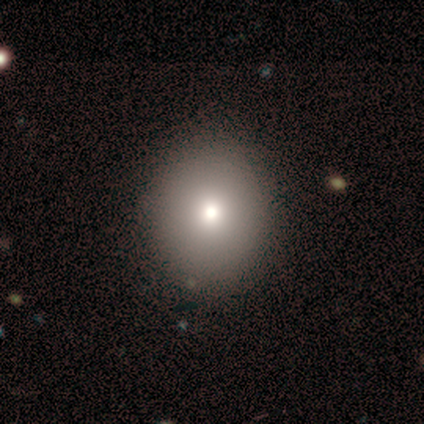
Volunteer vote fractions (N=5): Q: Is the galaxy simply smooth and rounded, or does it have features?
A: smooth — 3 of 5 (60%).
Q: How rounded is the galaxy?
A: round — 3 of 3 (100%).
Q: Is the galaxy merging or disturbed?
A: none — 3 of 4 (75%).